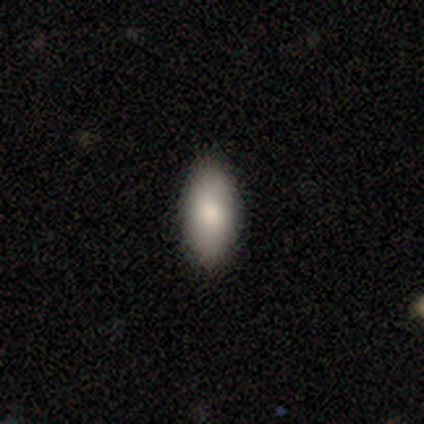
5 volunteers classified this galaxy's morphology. This appears to be a smooth galaxy with no disk features (80%) that is in between round and cigar-shaped (100%). Merging: none (100%).